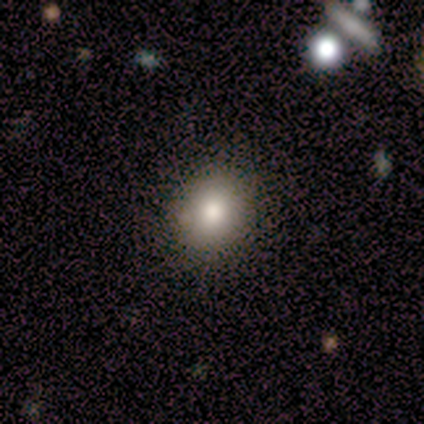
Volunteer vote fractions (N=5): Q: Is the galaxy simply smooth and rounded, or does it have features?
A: smooth — 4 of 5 (80%).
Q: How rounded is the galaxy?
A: round — 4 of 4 (100%).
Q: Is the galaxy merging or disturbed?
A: none — 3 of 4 (75%).